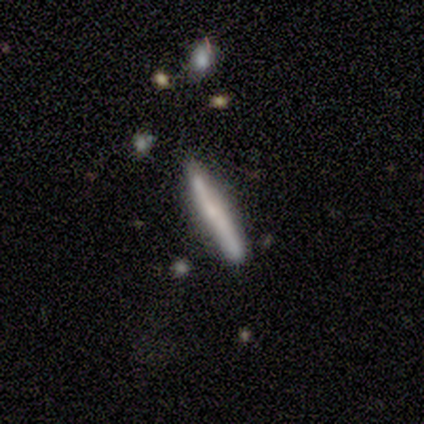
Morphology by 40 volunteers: A featured or disk galaxy (57%) viewed edge-on (96%) with no central bulge (55%). Merging: none (78%).